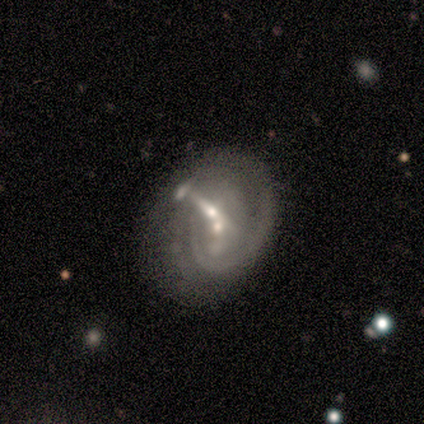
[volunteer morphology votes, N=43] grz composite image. It shows a featured or disk galaxy (93%) with no bar (56%), tight (60%) spiral arms (77%) and a small central bulge (59%). Merging: merger (40%).